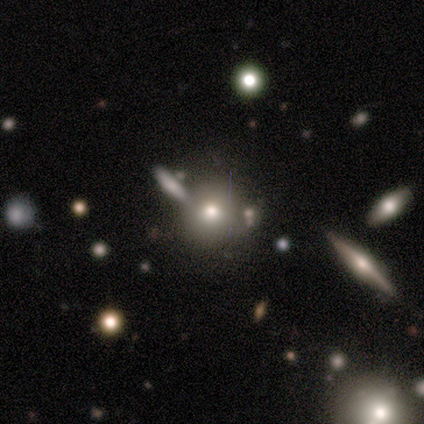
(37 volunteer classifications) Smooth or featured: smooth — 81% (featured or disk — 14%)
How rounded: round — 93% (in between — 7%)
Merging: none — 80% (merger — 11%)